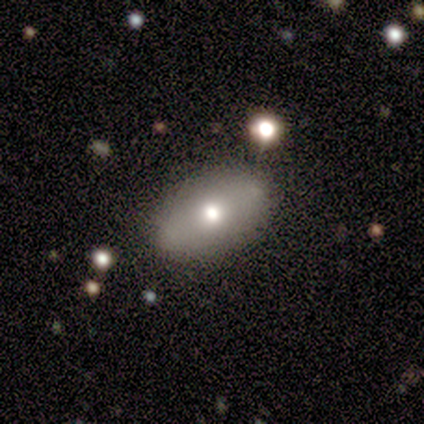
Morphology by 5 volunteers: This appears to be a smooth galaxy with no disk features (60%) that is in between round and cigar-shaped (100%). Merging: none (33%, tied with minor disturbance and merger).